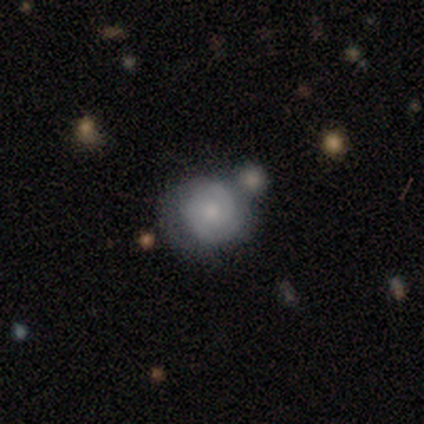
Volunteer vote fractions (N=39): A featured or disk galaxy (49%) with no bar (89%), 2 (67%) tight (47%) spiral arms (79%) and a moderate central bulge (63%).

Vote fractions:
- Smooth or featured? featured or disk: 49% / smooth: 41% / star or artifact: 10%
- Edge-on disk? no: 100% / yes: 0%
- Bar? no: 89% / weak: 11% / strong: 0%
- Spiral arms? yes: 79% / no: 21%
- Spiral winding? tight: 47% / medium: 40% / loose: 13%
- Spiral arm count? 2: 67% / can't tell: 27% / 4: 7% / 1: 0% / 3: 0% / more than 4: 0%
- Bulge size? moderate: 63% / small: 26% / large: 5% / none: 5% / dominant: 0%
- Merging? none: 57% / minor disturbance: 26% / merger: 17% / major disturbance: 0%